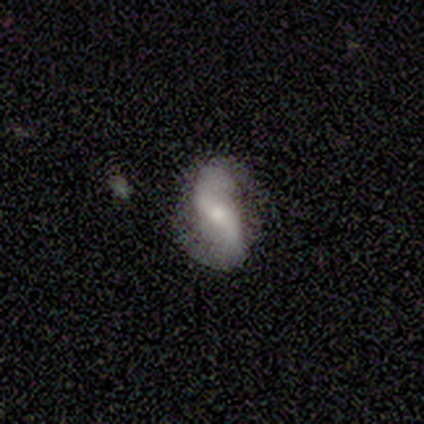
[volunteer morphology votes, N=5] Smooth or featured? featured or disk (100%)
Edge-on disk? no (100%)
Bar? strong (40%, tied with weak)
Spiral arms? yes (100%)
Spiral winding? loose (80%)
Spiral arm count? 2 (100%)
Bulge size? moderate (40%, tied with small)
Merging? none (100%)